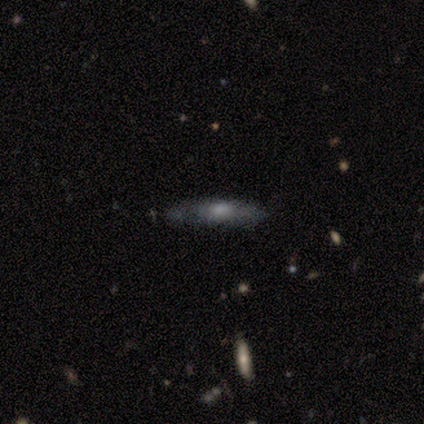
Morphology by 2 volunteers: Smooth or featured?
  - smooth: 50% * (tied)
  - star or artifact: 50% * (tied)
  - featured or disk: 0%
How rounded?
  - cigar-shaped: 100% *
  - round: 0%
  - in between: 0%
Merging?
  - none: 100% *
  - minor disturbance: 0%
  - major disturbance: 0%
  - merger: 0%